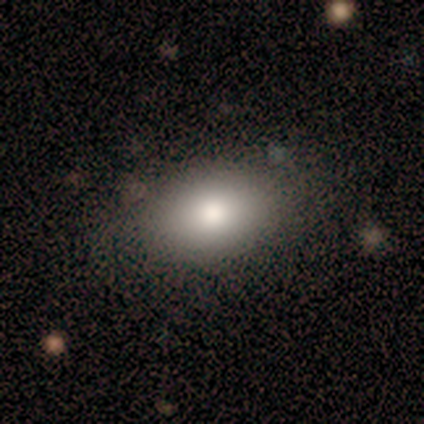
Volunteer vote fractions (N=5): Overall: smooth (80%). How rounded: in between (100%). Merging: none (60%; minor disturbance 40%).